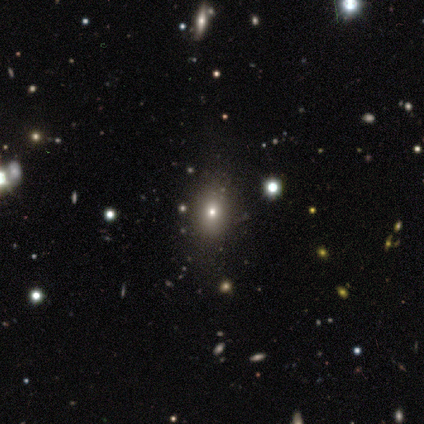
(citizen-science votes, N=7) This is likely a smooth galaxy (71%). How rounded: likely round (60%). Merging: clearly none (100%).